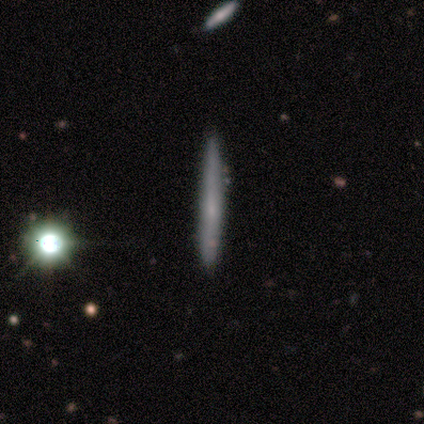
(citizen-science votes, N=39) A featured or disk galaxy (51%) viewed edge-on (100%) with no central bulge (65%).

Vote fractions:
- Smooth or featured? featured or disk: 51% / smooth: 31% / star or artifact: 18%
- Edge-on disk? yes: 100% / no: 0%
- Edge-on bulge? none: 65% / rounded: 30% / boxy: 5%
- Merging? none: 84% / minor disturbance: 12% / merger: 3% / major disturbance: 0%